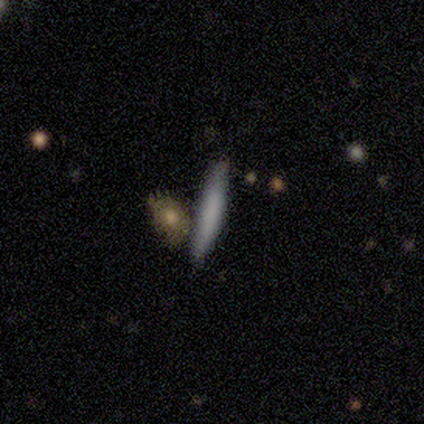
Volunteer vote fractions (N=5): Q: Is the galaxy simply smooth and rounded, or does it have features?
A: smooth — 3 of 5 (60%).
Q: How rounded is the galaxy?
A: cigar-shaped — 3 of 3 (100%).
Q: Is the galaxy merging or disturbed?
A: none — 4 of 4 (100%).